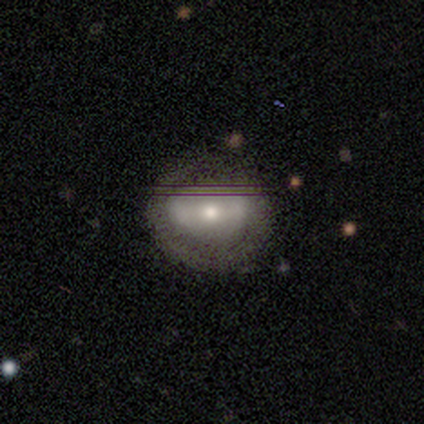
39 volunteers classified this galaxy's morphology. smooth_or_featured: smooth (p=0.41) [alt: featured or disk p=0.33]
how_rounded: round (p=0.56) [alt: in between p=0.44]
merging: none (p=0.76) [alt: minor disturbance p=0.10]